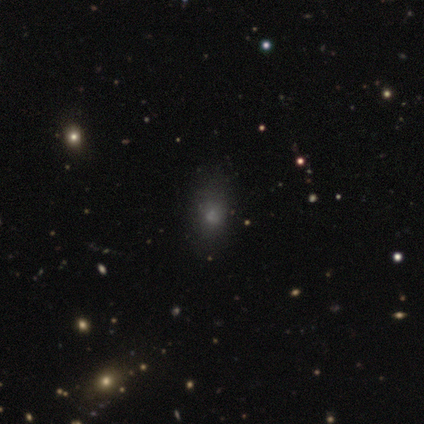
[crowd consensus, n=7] Morphology: type=smooth (86%); roundness=in between (67%); merging=none (100%).